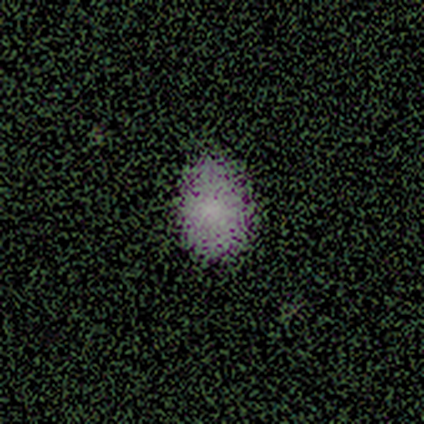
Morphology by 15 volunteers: This appears to be a smooth galaxy with no disk features (73%) that is in between round and cigar-shaped (91%). Merging: none (82%).